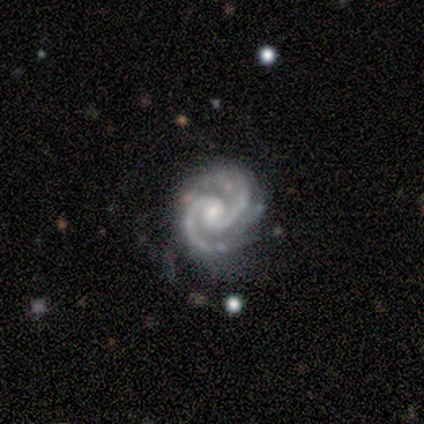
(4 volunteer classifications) Smooth or featured: featured or disk — 100%
Edge-on disk: no — 100%
Bar: weak — 75% (no — 25%)
Spiral arms: yes — 100%
Spiral winding: tight — 50% (tied with medium — 50%)
Spiral arm count: 2 — 100%
Bulge size: moderate — 50% (tied with small — 50%)
Merging: minor disturbance — 100%